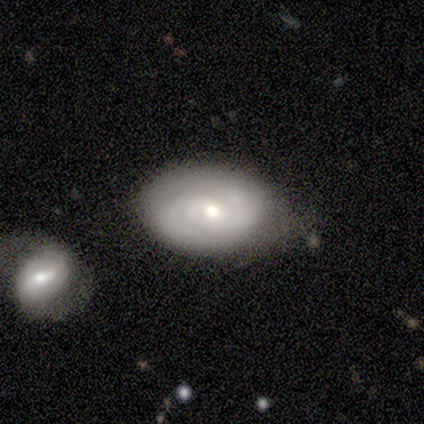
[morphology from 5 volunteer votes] This appears to be a featured or disk galaxy (60%) with no bar (100%), 2 (100%) tight (50%, tied with medium) spiral arms (67%) and a small central bulge (67%). Merging: none (80%).